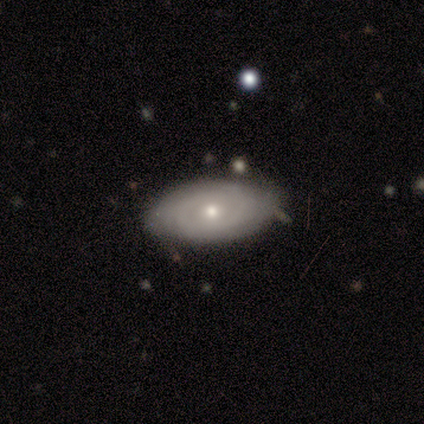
Smooth or featured? smooth (60%)
How rounded? in between (100%)
Merging? minor disturbance (60%)